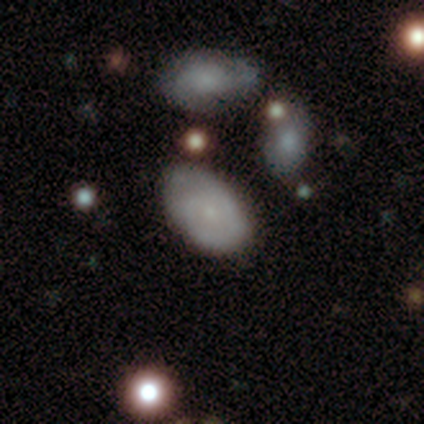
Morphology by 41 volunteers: Q: Smooth or featured?
A: smooth (63%); runner-up: featured or disk (32%)
Q: How rounded?
A: in between (92%); runner-up: round (8%)
Q: Merging?
A: none (64%); runner-up: minor disturbance (26%)